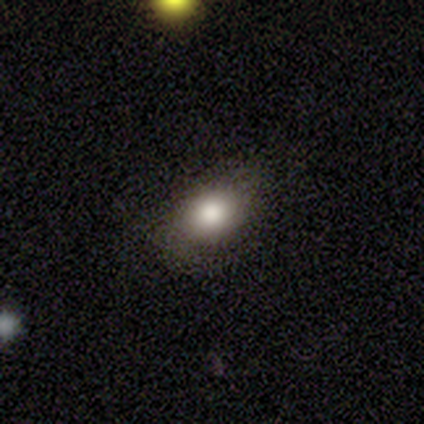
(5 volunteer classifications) A smooth galaxy with no disk features (80%) that is round (50%, tied with in between).

Vote fractions:
- Smooth or featured? smooth: 80% / featured or disk: 20% / star or artifact: 0%
- How rounded? round: 50% (tied) / in between: 50% (tied) / cigar-shaped: 0%
- Merging? none: 60% / major disturbance: 20% / merger: 20% / minor disturbance: 0%